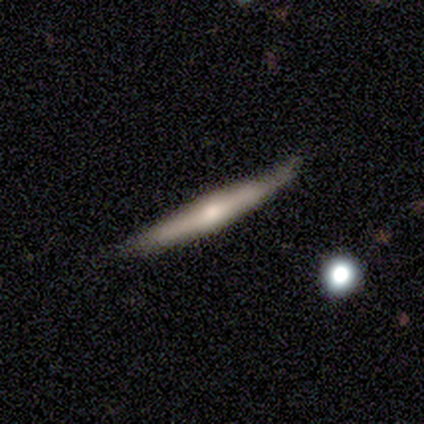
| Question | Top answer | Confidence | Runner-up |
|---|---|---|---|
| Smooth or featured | featured or disk | 60% | smooth (40%) |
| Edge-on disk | yes | 100% | — |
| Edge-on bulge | rounded | 100% | — |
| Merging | none | 80% | minor disturbance (20%) |